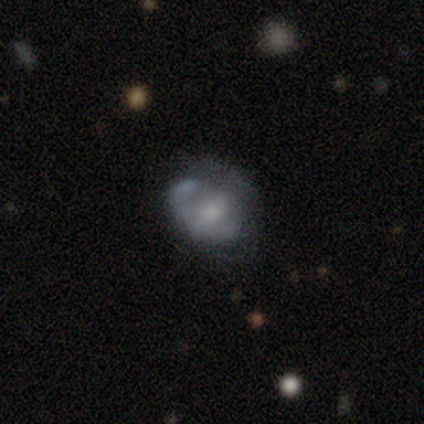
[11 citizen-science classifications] Morphology: type=smooth (45%, tied with featured or disk); roundness=in between (60%); merging=none (60%).